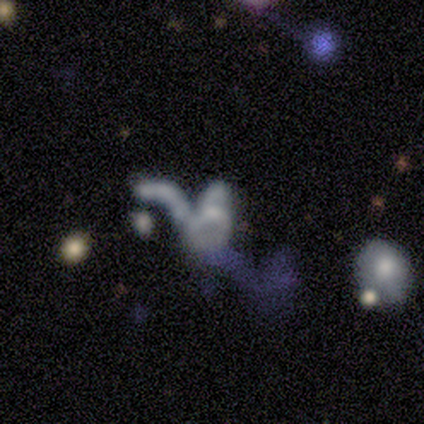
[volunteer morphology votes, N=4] Q: Smooth or featured?
A: smooth (75%); runner-up: featured or disk (25%)
Q: How rounded?
A: in between (100%)
Q: Merging?
A: major disturbance (50%); tied with: merger (50%)